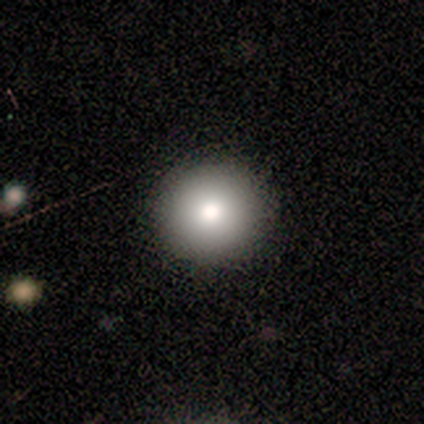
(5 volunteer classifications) Q: Smooth or featured?
A: smooth (80%); runner-up: star or artifact (20%)
Q: How rounded?
A: round (100%)
Q: Merging?
A: none (100%)